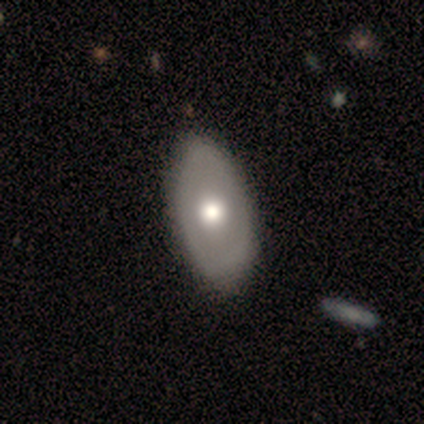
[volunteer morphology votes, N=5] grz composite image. It shows a smooth galaxy with no disk features (80%) that is in between round and cigar-shaped (100%). Merging: none (100%).